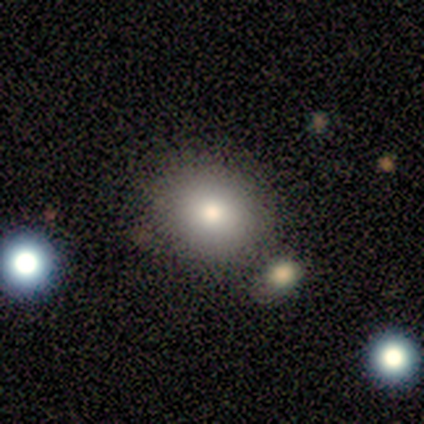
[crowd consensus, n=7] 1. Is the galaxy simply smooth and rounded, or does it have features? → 71% smooth, 14% featured or disk, 14% star or artifact.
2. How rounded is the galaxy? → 80% round, 20% in between, 0% cigar-shaped.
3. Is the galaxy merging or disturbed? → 67% none, 33% minor disturbance, 0% major disturbance, 0% merger.